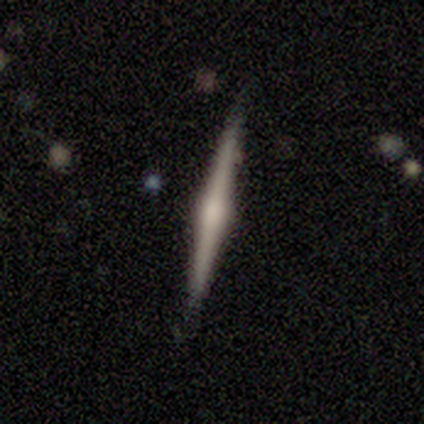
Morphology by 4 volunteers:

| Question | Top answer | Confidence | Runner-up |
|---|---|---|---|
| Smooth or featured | featured or disk | 75% | smooth (25%) |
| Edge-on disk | yes | 100% | — |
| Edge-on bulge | boxy | 33% | tied: none (33%), rounded (33%) |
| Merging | none | 100% | — |